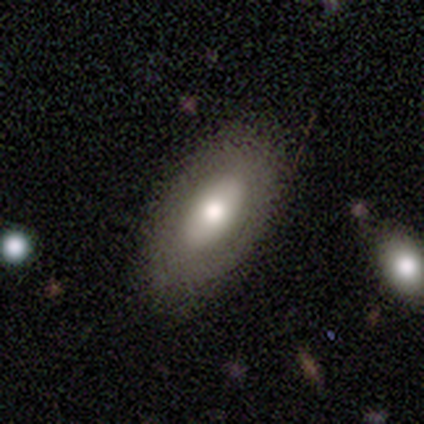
Morphology: type=smooth (80%); roundness=in between (100%); merging=none (80%).